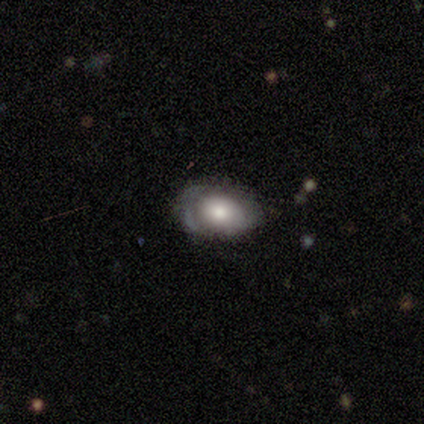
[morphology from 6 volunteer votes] A smooth galaxy with no disk features (50%) that is in between round and cigar-shaped (100%). Merging: none (80%).